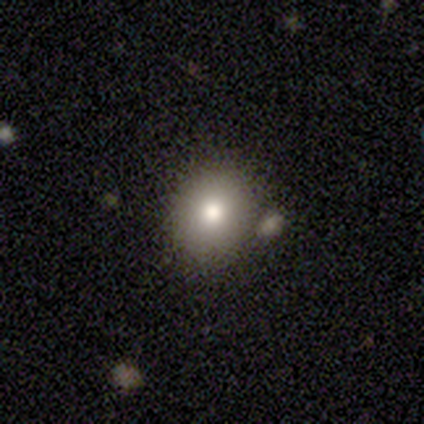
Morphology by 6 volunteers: A smooth galaxy with no disk features (67%) that is round (100%).

Vote fractions:
- Smooth or featured? smooth: 67% / featured or disk: 17% / star or artifact: 17%
- How rounded? round: 100% / in between: 0% / cigar-shaped: 0%
- Merging? none: 40% (tied) / minor disturbance: 40% (tied) / merger: 20% / major disturbance: 0%